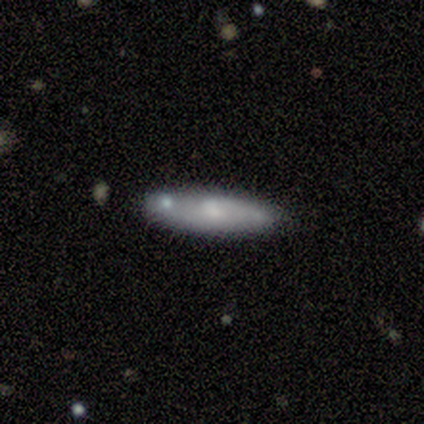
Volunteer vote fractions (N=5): Smooth or featured?
  - smooth: 80% *
  - featured or disk: 20%
  - star or artifact: 0%
How rounded?
  - cigar-shaped: 75% *
  - in between: 25%
  - round: 0%
Merging?
  - none: 40% * (tied)
  - minor disturbance: 40% * (tied)
  - major disturbance: 20%
  - merger: 0%